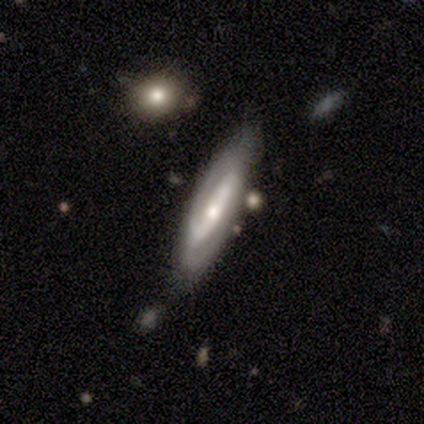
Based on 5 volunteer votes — Q: Smooth or featured?
A: featured or disk (100%)
Q: Edge-on disk?
A: no (100%)
Q: Bar?
A: no (60%); runner-up: strong (20%)
Q: Spiral arms?
A: yes (100%)
Q: Spiral winding?
A: tight (60%); runner-up: medium (20%)
Q: Spiral arm count?
A: 2 (40%); runner-up: 1 (20%)
Q: Bulge size?
A: small (60%); runner-up: moderate (40%)
Q: Merging?
A: none (80%); runner-up: minor disturbance (20%)